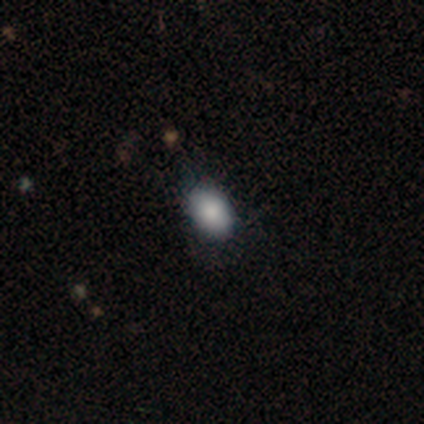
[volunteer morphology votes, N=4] This appears to be a smooth galaxy with no disk features (75%) that is in between round and cigar-shaped (67%). Merging: none (67%).